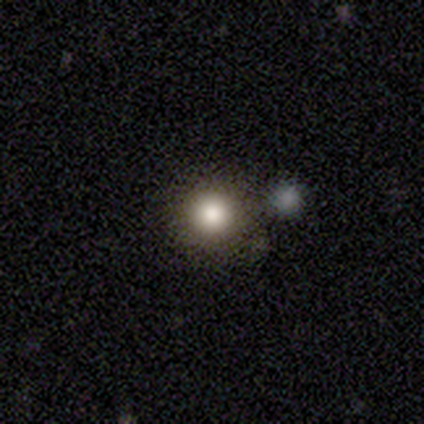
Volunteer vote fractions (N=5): This is clearly a smooth galaxy (100%). How rounded: clearly round (100%). Merging: marginally none (40%, tied with minor disturbance).